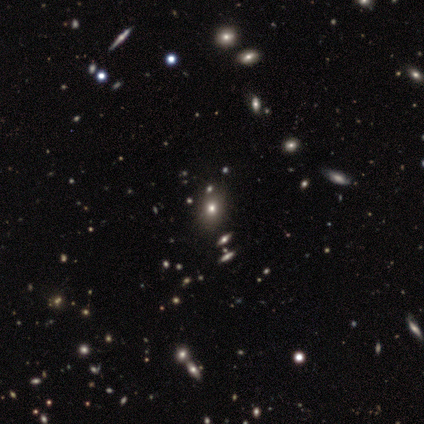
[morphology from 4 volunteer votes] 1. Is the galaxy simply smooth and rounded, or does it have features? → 75% smooth, 25% featured or disk, 0% star or artifact.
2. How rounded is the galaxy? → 100% round, 0% in between, 0% cigar-shaped.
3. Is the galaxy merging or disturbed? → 100% none, 0% minor disturbance, 0% major disturbance, 0% merger.